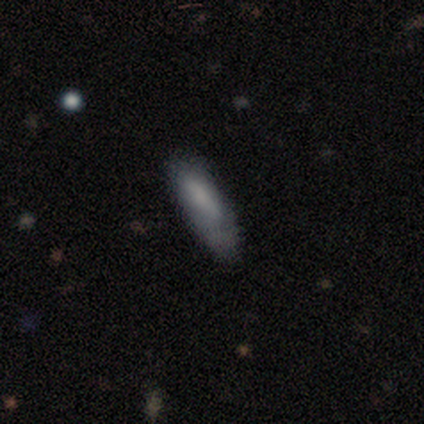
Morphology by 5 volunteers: Smooth or featured? 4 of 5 (80%) said smooth. How rounded? 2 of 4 (50%, tied with cigar-shaped) said in between. Merging? 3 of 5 (60%) said none.